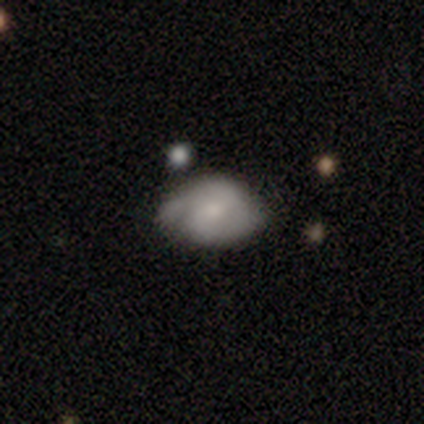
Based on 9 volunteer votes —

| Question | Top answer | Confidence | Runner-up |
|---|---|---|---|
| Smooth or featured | smooth | 56% | featured or disk (44%) |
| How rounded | in between | 100% | — |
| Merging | none | 67% | minor disturbance (33%) |